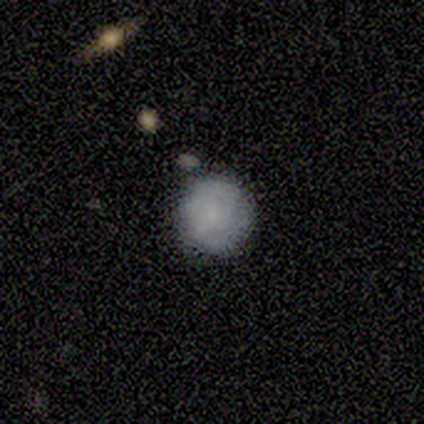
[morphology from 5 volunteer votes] Smooth or featured: smooth — 60% (featured or disk — 40%)
How rounded: round — 100%
Merging: none — 100%